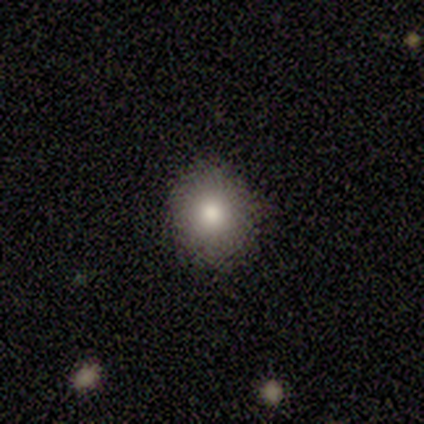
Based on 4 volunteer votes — Morphology: type=smooth (75%); roundness=round (67%); merging=none (100%).